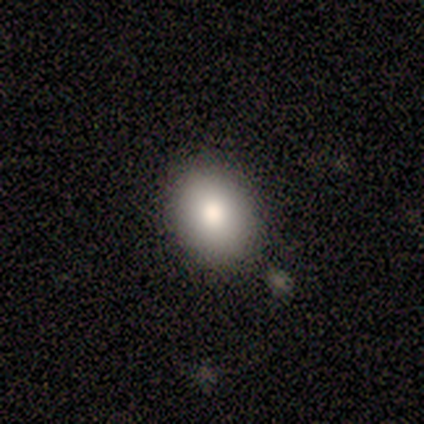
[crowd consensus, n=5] Smooth or featured?
  - smooth: 100% *
  - featured or disk: 0%
  - star or artifact: 0%
How rounded?
  - in between: 80% *
  - round: 20%
  - cigar-shaped: 0%
Merging?
  - none: 100% *
  - minor disturbance: 0%
  - major disturbance: 0%
  - merger: 0%